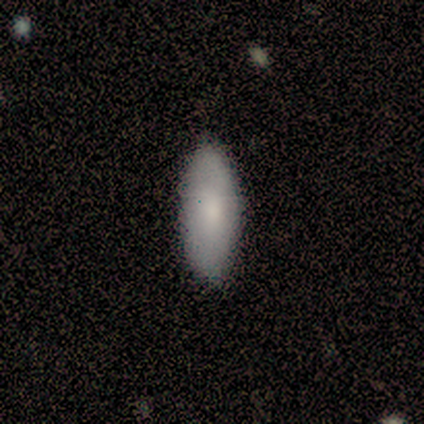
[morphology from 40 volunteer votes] Smooth or featured?
  - smooth: 80% *
  - featured or disk: 12%
  - star or artifact: 8%
How rounded?
  - in between: 72% *
  - cigar-shaped: 28%
  - round: 0%
Merging?
  - none: 92% *
  - minor disturbance: 5%
  - merger: 3%
  - major disturbance: 0%